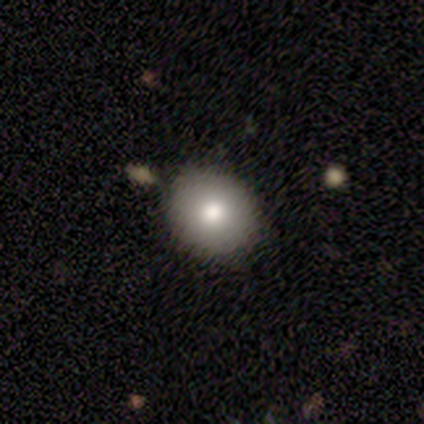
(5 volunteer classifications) smooth_or_featured: smooth (p=0.40) [tied with: star or artifact p=0.40]
how_rounded: round (p=0.50) [tied with: in between p=0.50]
merging: minor disturbance (p=0.67) [alt: none p=0.33]